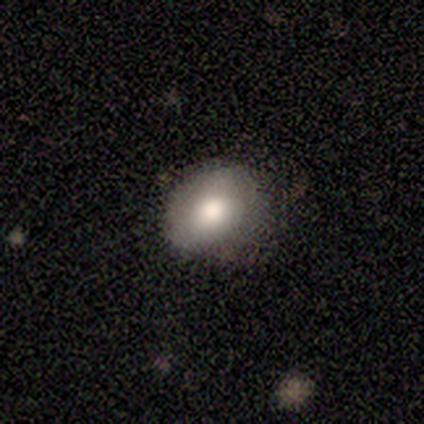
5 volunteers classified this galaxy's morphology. This is clearly a smooth galaxy (80%). How rounded: likely round (75%). Merging: likely none (75%).